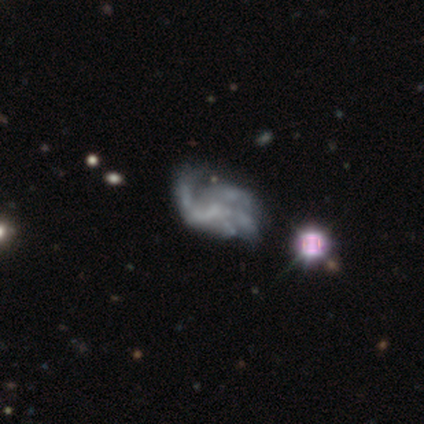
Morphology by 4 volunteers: Smooth or featured? featured or disk (50%)
Edge-on disk? no (100%)
Bar? no (100%)
Spiral arms? yes (100%)
Spiral winding? medium (50%, tied with loose)
Spiral arm count? 1 (50%, tied with 3)
Bulge size? none (100%)
Merging? none (33%, tied with minor disturbance and major disturbance)